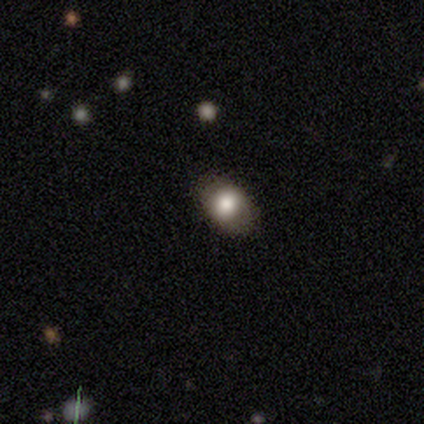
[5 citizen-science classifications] smooth-or-featured: smooth: 80% | featured or disk: 20% | star or artifact: 0%
  how-rounded: in between: 100% | round: 0% | cigar-shaped: 0%
  merging: none: 80% | minor disturbance: 20% | major disturbance: 0% | merger: 0%